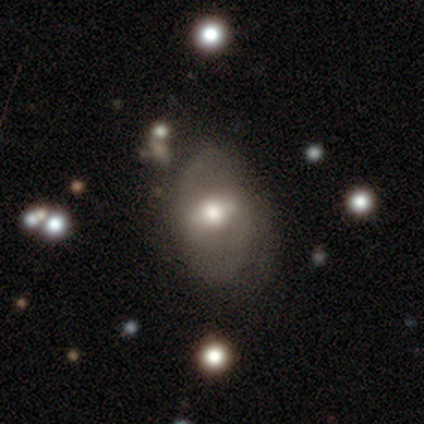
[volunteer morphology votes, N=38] Smooth or featured?
  - featured or disk: 66% *
  - smooth: 29%
  - star or artifact: 5%
Edge-on disk?
  - no: 84% *
  - yes: 16%
Bar?
  - weak: 62% *
  - strong: 29%
  - no: 10%
Spiral arms?
  - yes: 67% *
  - no: 33%
Spiral winding?
  - loose: 50% *
  - medium: 36%
  - tight: 14%
Spiral arm count?
  - 2: 86% *
  - 1: 7%
  - can't tell: 7%
  - 3: 0%
  - 4: 0%
  - more than 4: 0%
Bulge size?
  - moderate: 57% *
  - large: 33%
  - small: 10%
  - dominant: 0%
  - none: 0%
Merging?
  - none: 36% *
  - minor disturbance: 14%
  - major disturbance: 14%
  - merger: 6%